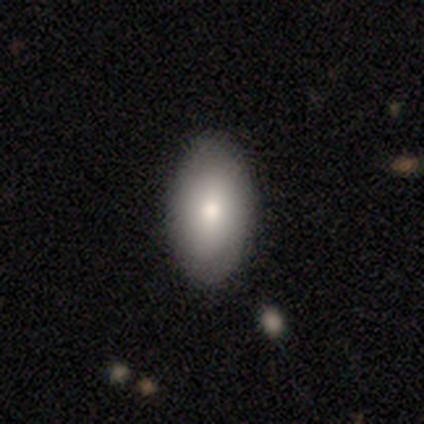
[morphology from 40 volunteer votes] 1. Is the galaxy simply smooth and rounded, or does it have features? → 78% smooth, 22% featured or disk, 0% star or artifact.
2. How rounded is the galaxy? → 94% in between, 6% round, 0% cigar-shaped.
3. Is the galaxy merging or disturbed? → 60% none, 8% minor disturbance, 2% major disturbance, 2% merger.